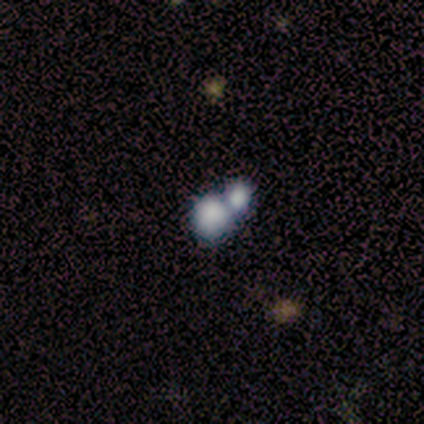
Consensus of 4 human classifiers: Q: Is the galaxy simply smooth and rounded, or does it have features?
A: smooth — 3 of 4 (75%).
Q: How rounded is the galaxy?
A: round — 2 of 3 (67%).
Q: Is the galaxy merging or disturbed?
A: merger — 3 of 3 (100%).